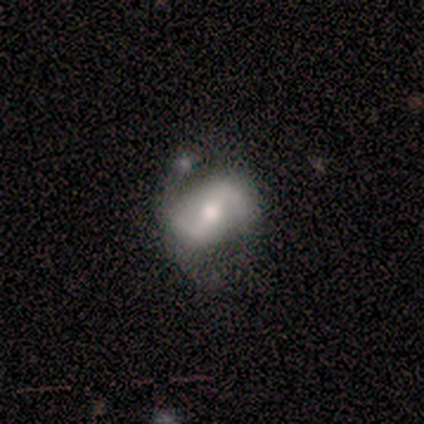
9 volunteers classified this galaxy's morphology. This is likely a featured or disk galaxy (78%). It is clearly not viewed edge-on (100%). Bar: marginally strong (43%, tied with weak). Spiral arm pattern: clearly yes (100%). Spiral arm count: clearly 2 (100%). Spiral winding: marginally loose (43%). Central bulge: clearly moderate (86%). Merging: marginally none (44%).